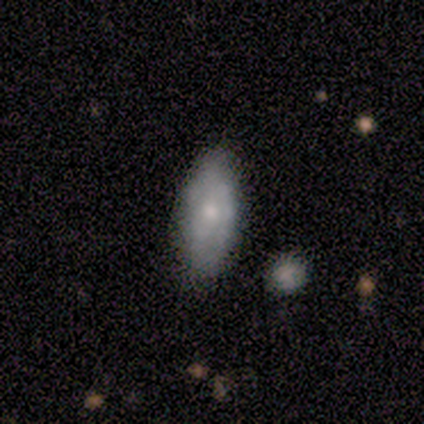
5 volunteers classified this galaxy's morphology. featured or disk 80%, smooth 20%, star or artifact 0%. Down the decision tree: edge-on disk — no (100%); bar — no (100%); spiral arms — no (100%); bulge size — small (50%); merging — none (100%).